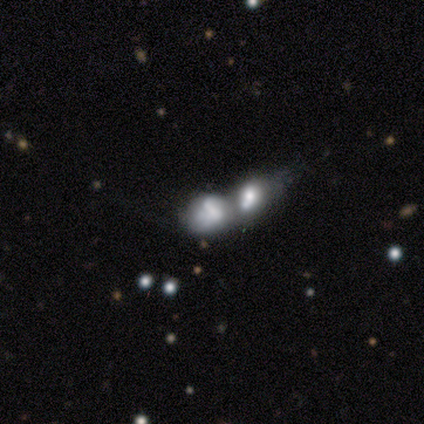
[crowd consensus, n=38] Overall: featured or disk (55%; smooth 42%). Edge-on disk: no (100%). Bar: no (95%). Spiral arms: no (81%). Bulge size: none (48%; large 19%). Merging: merger (81%).